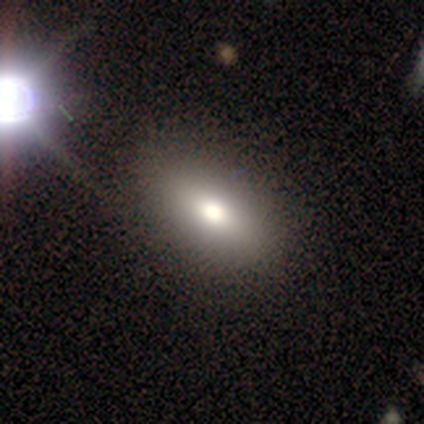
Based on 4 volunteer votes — Smooth or featured?
  - smooth: 75% *
  - star or artifact: 25%
  - featured or disk: 0%
How rounded?
  - in between: 100% *
  - round: 0%
  - cigar-shaped: 0%
Merging?
  - none: 100% *
  - minor disturbance: 0%
  - major disturbance: 0%
  - merger: 0%